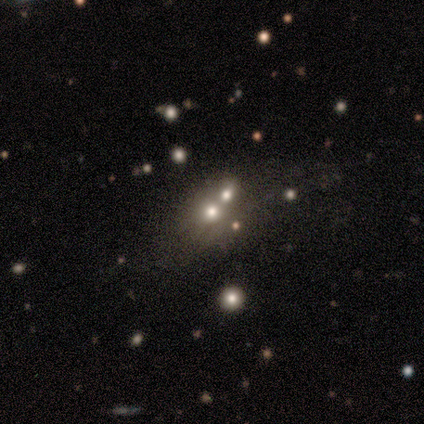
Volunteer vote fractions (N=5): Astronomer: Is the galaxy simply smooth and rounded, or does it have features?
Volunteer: smooth — 60%.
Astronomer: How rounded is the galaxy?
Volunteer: in between — 67%.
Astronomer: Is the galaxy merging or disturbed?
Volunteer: merger — 100%.